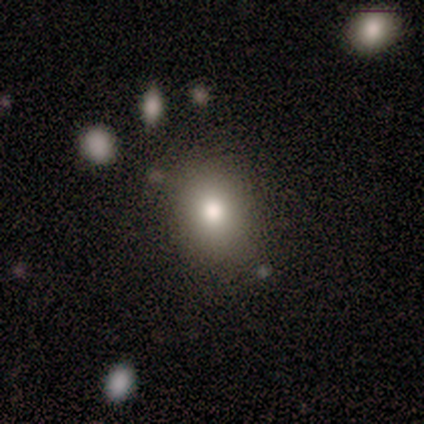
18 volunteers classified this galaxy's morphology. A smooth galaxy with no disk features (94%) that is round (65%).

Vote fractions:
- Smooth or featured? smooth: 94% / featured or disk: 6% / star or artifact: 0%
- How rounded? round: 65% / in between: 35% / cigar-shaped: 0%
- Merging? none: 89% / minor disturbance: 11% / major disturbance: 0% / merger: 0%